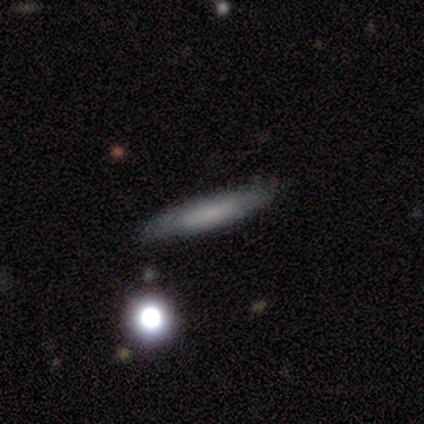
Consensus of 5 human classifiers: Smooth or featured? smooth (60%)
How rounded? cigar-shaped (100%)
Merging? none (100%)